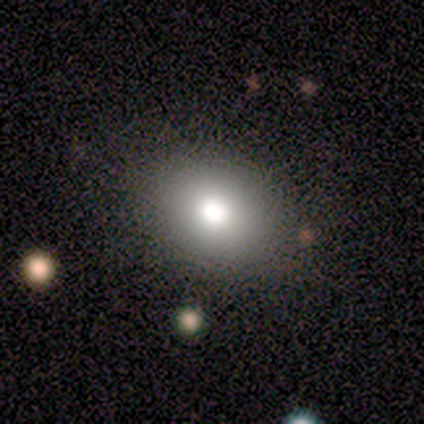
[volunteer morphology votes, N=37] Overall: smooth (76%). How rounded: round (54%; in between 46%). Merging: none (88%).